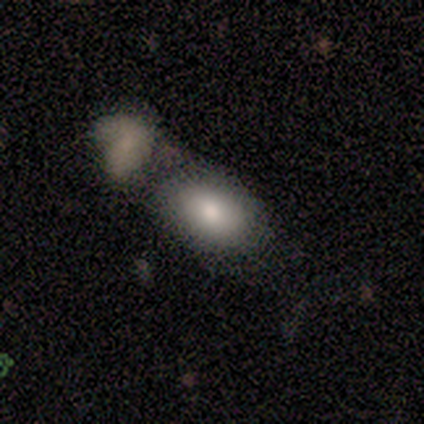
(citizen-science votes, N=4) Smooth or featured? smooth (100%)
How rounded? in between (100%)
Merging? none (50%, tied with merger)